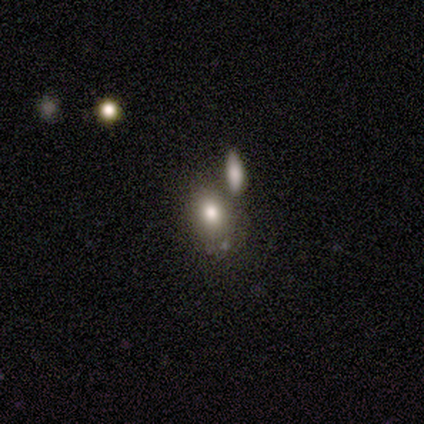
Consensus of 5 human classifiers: Morphology: type=smooth (100%); roundness=in between (60%); merging=none (60%).